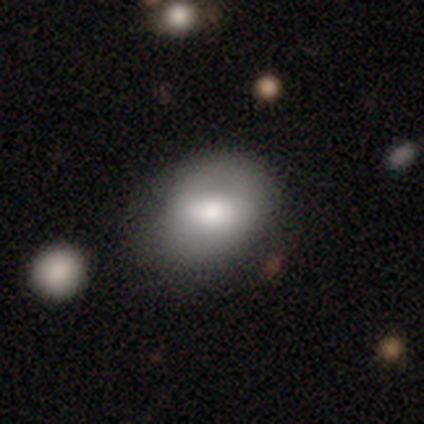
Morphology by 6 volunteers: smooth-or-featured: smooth: 67% | featured or disk: 17% | star or artifact: 17%
  how-rounded: in between: 100% | round: 0% | cigar-shaped: 0%
  merging: none: 80% | major disturbance: 20% | minor disturbance: 0% | merger: 0%